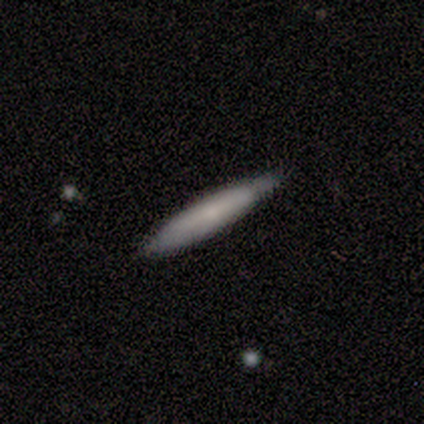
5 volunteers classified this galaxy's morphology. type=smooth (100%); roundness=cigar-shaped (100%); merging=none (100%).